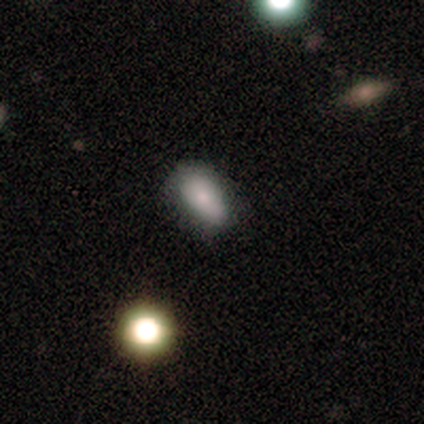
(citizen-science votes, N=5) Smooth or featured? 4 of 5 (80%) said smooth. How rounded? 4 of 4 (100%) said in between. Merging? 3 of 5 (60%) said none.